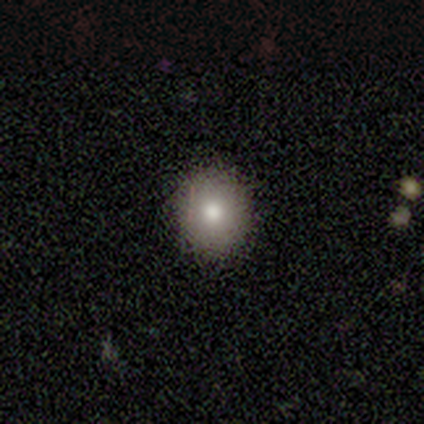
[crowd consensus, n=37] Smooth or featured?
  - smooth: 68% *
  - featured or disk: 22%
  - star or artifact: 11%
How rounded?
  - round: 88% *
  - in between: 12%
  - cigar-shaped: 0%
Merging?
  - none: 94% *
  - minor disturbance: 3%
  - major disturbance: 3%
  - merger: 0%